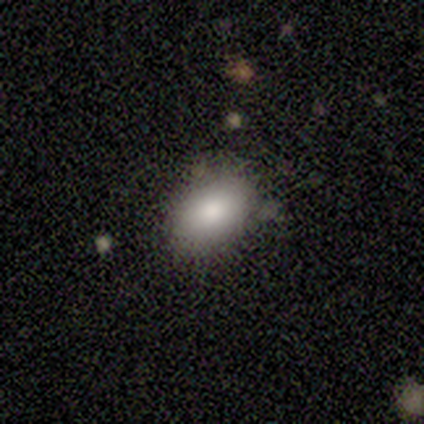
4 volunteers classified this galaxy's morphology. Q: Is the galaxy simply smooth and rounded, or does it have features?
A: smooth — 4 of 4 (100%).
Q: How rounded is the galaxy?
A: in between — 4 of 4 (100%).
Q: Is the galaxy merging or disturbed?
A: minor disturbance — 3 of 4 (75%).